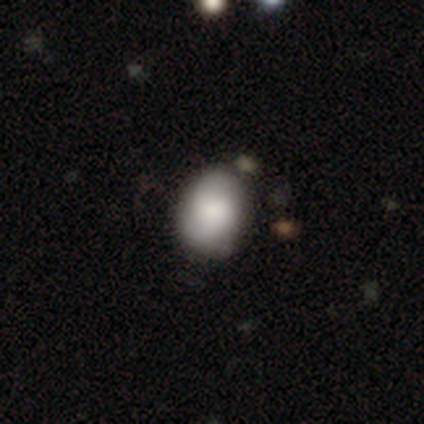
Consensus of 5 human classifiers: featured or disk 80%, smooth 20%, star or artifact 0%. Down the decision tree: edge-on disk — no (100%); bar — no (75%); spiral arms — yes (100%); spiral arm count — 2 (75%); spiral winding — tight (50%, tied with medium); bulge size — dominant (25%, tied with large, moderate and none); merging — none (80%).